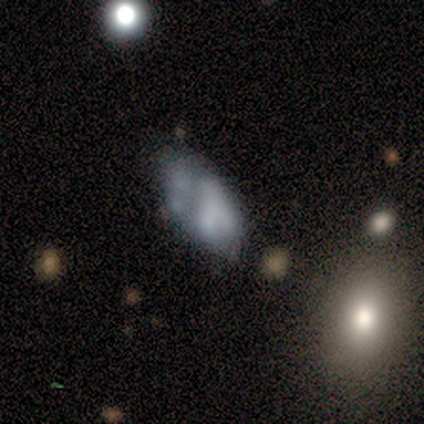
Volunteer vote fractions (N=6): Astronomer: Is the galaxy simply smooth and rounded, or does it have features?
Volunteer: smooth — 67%.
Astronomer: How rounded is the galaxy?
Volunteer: in between — 100%.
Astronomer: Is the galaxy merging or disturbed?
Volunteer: major disturbance — 50% (runner-up: merger, 33%).